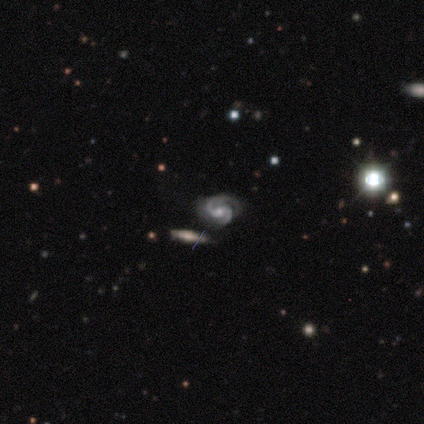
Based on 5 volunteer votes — smooth_or_featured: featured or disk (p=1.00)
disk_edge_on: no (p=1.00)
bar: strong (p=0.40) [tied with: weak p=0.40]
has_spiral_arms: yes (p=0.80) [alt: no p=0.20]
spiral_winding: medium (p=0.75) [alt: tight p=0.25]
spiral_arm_count: 2 (p=0.75) [alt: 1 p=0.25]
bulge_size: moderate (p=0.60) [alt: large p=0.20]
merging: minor disturbance (p=0.60) [alt: none p=0.20]